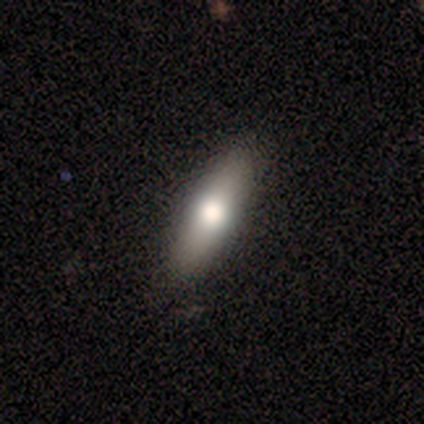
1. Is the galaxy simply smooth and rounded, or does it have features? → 100% smooth, 0% featured or disk, 0% star or artifact.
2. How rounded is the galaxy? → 60% in between, 20% round, 20% cigar-shaped.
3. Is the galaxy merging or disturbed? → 80% none, 20% minor disturbance, 0% major disturbance, 0% merger.